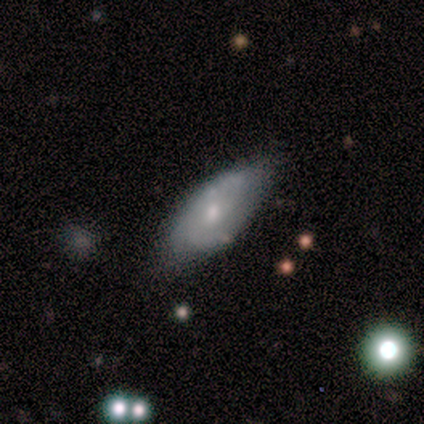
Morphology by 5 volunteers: This is likely a smooth galaxy (60%). How rounded: likely in between (67%). Merging: possibly none (50%).